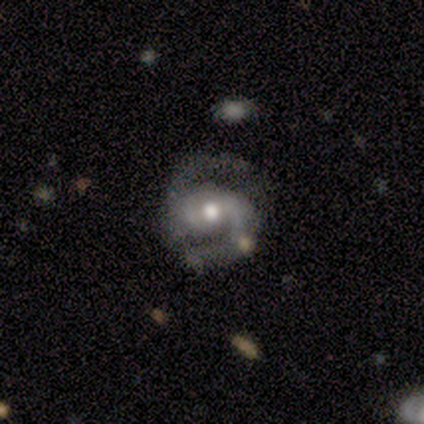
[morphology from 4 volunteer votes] A featured or disk galaxy (100%) with a strong bar (50%, tied with weak), 2 (100%) medium (100%) spiral arms (100%) and a moderate central bulge (75%).

Vote fractions:
- Smooth or featured? featured or disk: 100% / smooth: 0% / star or artifact: 0%
- Edge-on disk? no: 100% / yes: 0%
- Bar? strong: 50% (tied) / weak: 50% (tied) / no: 0%
- Spiral arms? yes: 100% / no: 0%
- Spiral winding? medium: 100% / tight: 0% / loose: 0%
- Spiral arm count? 2: 100% / 1: 0% / 3: 0% / 4: 0% / more than 4: 0% / can't tell: 0%
- Bulge size? moderate: 75% / large: 25% / dominant: 0% / small: 0% / none: 0%
- Merging? none: 75% / minor disturbance: 25% / major disturbance: 0% / merger: 0%